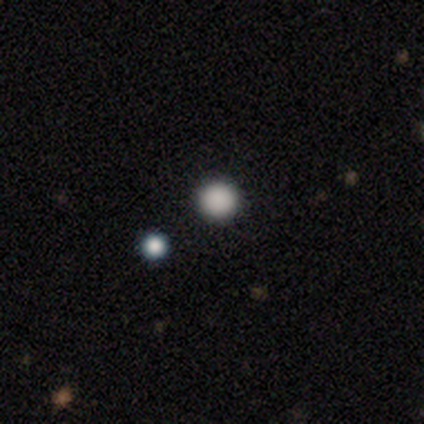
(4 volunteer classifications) Morphology: type=smooth (100%); roundness=round (100%); merging=none (100%).